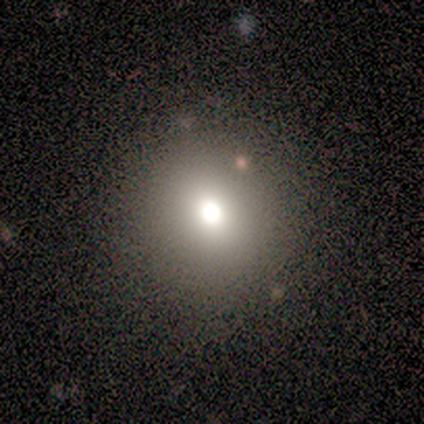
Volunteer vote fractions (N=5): Volunteers were most divided on "merging": none: 80%, minor disturbance: 20%, major disturbance: 0%, merger: 0%. More confident: smooth or featured — smooth (100%); how rounded — round (100%).